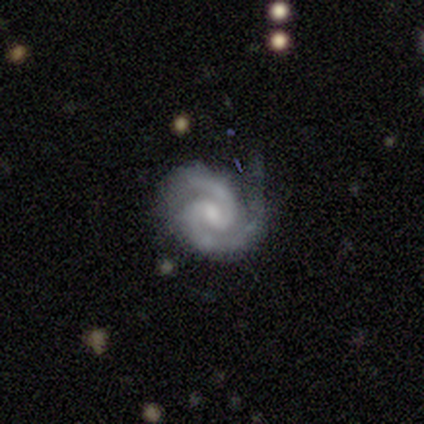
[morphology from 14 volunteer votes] Smooth or featured: featured or disk — 79% (star or artifact — 14%)
Edge-on disk: no — 100%
Bar: weak — 73% (no — 27%)
Spiral arms: yes — 100%
Spiral winding: medium — 64% (tight — 27%)
Spiral arm count: 2 — 82% (1 — 9%)
Bulge size: moderate — 73% (small — 18%)
Merging: none — 67% (minor disturbance — 33%)